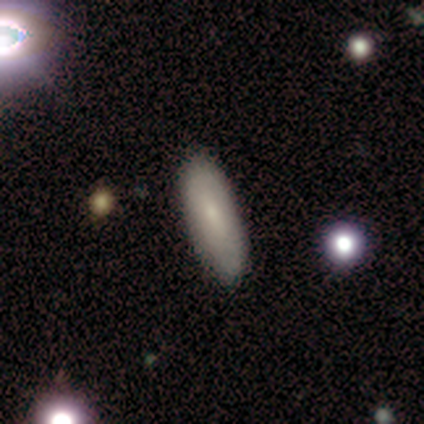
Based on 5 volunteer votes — Smooth or featured? 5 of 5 (100%) said smooth. How rounded? 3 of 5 (60%) said in between. Merging? 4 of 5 (80%) said none.